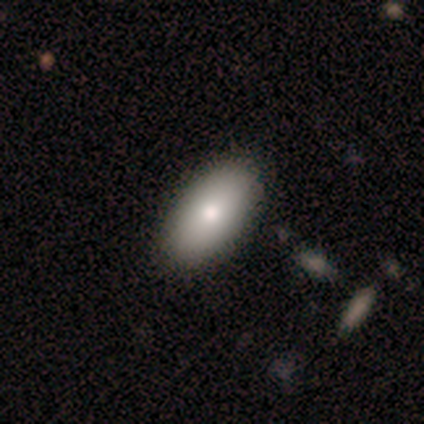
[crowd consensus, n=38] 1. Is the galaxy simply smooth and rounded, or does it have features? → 79% smooth, 18% featured or disk, 3% star or artifact.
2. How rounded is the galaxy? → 100% in between, 0% round, 0% cigar-shaped.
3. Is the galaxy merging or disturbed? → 65% none, 5% merger, 3% minor disturbance, 0% major disturbance.